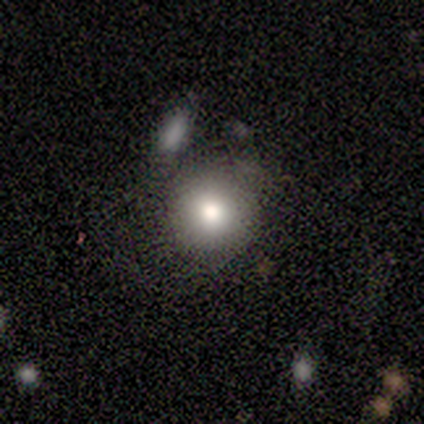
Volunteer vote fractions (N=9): Smooth or featured?
  - smooth: 78% *
  - featured or disk: 11%
  - star or artifact: 11%
How rounded?
  - round: 100% *
  - in between: 0%
  - cigar-shaped: 0%
Merging?
  - none: 62% *
  - minor disturbance: 25%
  - merger: 12%
  - major disturbance: 0%